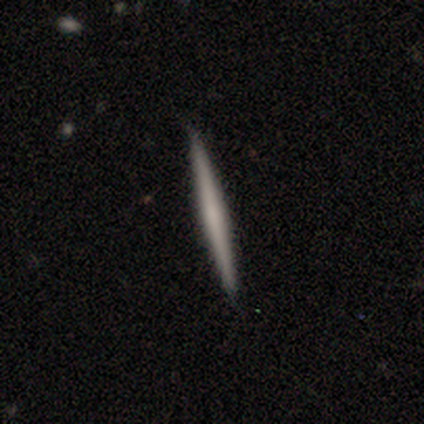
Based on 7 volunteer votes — Smooth or featured?
  - smooth: 57% *
  - featured or disk: 43%
  - star or artifact: 0%
How rounded?
  - cigar-shaped: 100% *
  - round: 0%
  - in between: 0%
Merging?
  - none: 100% *
  - minor disturbance: 0%
  - major disturbance: 0%
  - merger: 0%